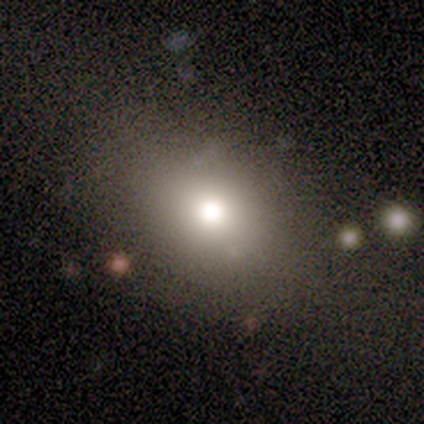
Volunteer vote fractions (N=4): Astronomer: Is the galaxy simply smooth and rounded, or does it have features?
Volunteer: smooth — 75%.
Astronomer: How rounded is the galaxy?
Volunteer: round — 67%.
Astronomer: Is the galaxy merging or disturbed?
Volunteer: none — 67%.